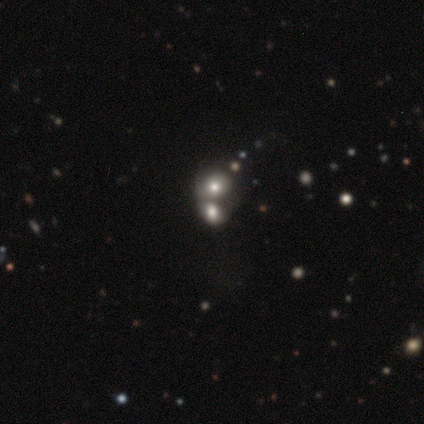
Smooth or featured? smooth (54%)
How rounded? round (53%)
Merging? merger (68%)